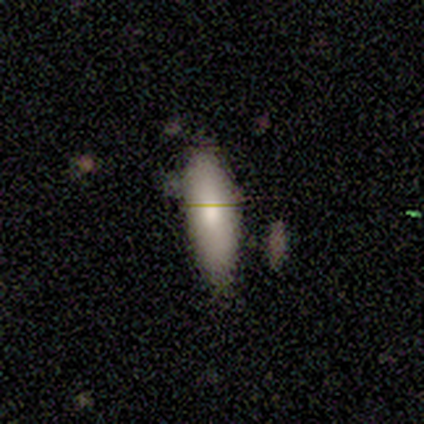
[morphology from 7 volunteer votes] featured or disk 57%, smooth 43%, star or artifact 0%. Down the decision tree: edge-on disk — no (75%); bar — no (100%); spiral arms — no (100%); bulge size — moderate (67%); merging — none (86%).